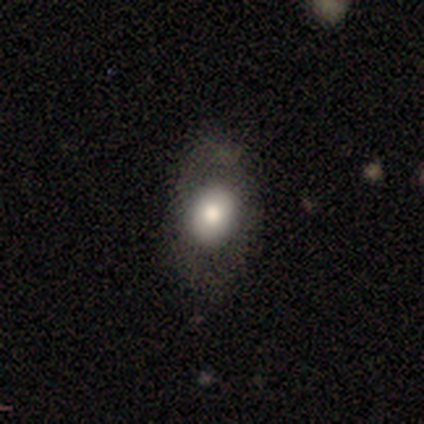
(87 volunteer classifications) Q: Smooth or featured?
A: smooth (67%); runner-up: featured or disk (22%)
Q: How rounded?
A: in between (71%); runner-up: round (28%)
Q: Merging?
A: none (71%); runner-up: minor disturbance (19%)